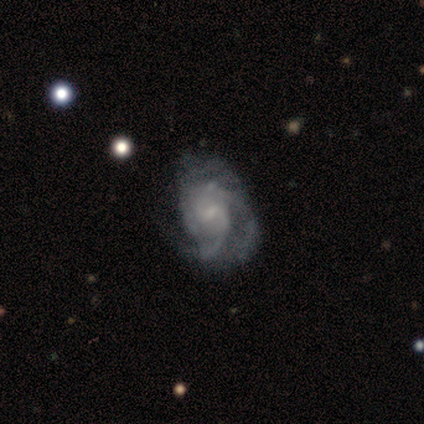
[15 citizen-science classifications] A featured or disk galaxy (87%) with a weak bar (58%), 3 (50%) medium (50%) spiral arms (100%) and a small central bulge (75%).

Vote fractions:
- Smooth or featured? featured or disk: 87% / smooth: 13% / star or artifact: 0%
- Edge-on disk? no: 92% / yes: 8%
- Bar? weak: 58% / no: 42% / strong: 0%
- Spiral arms? yes: 100% / no: 0%
- Spiral winding? medium: 50% / loose: 33% / tight: 17%
- Spiral arm count? 3: 50% / 2: 42% / can't tell: 8% / 1: 0% / 4: 0% / more than 4: 0%
- Bulge size? small: 75% / none: 17% / large: 8% / dominant: 0% / moderate: 0%
- Merging? minor disturbance: 47% / none: 33% / major disturbance: 13% / merger: 7%